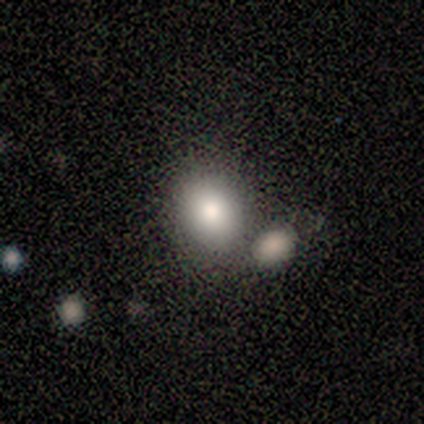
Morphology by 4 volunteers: A smooth galaxy with no disk features (100%) that is in between round and cigar-shaped (75%).

Vote fractions:
- Smooth or featured? smooth: 100% / featured or disk: 0% / star or artifact: 0%
- How rounded? in between: 75% / round: 25% / cigar-shaped: 0%
- Merging? none: 75% / merger: 25% / minor disturbance: 0% / major disturbance: 0%